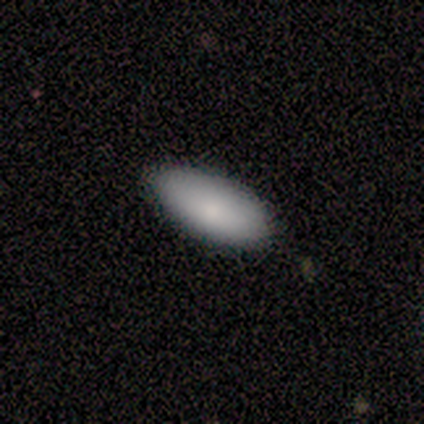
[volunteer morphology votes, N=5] Consensus on every question: smooth or featured — smooth (100%); how rounded — in between (100%); merging — none (100%).